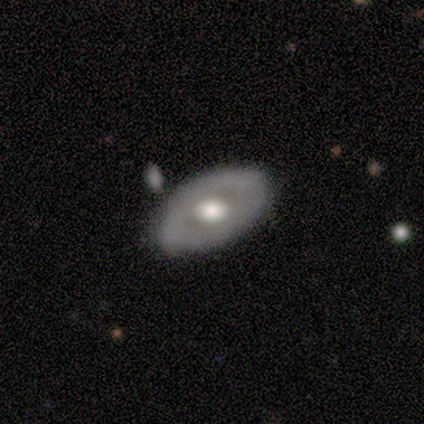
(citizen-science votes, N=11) featured or disk 82%, smooth 18%, star or artifact 0%. Down the decision tree: edge-on disk — no (78%); bar — no (71%); spiral arms — no (100%); bulge size — moderate (57%); merging — none (91%).